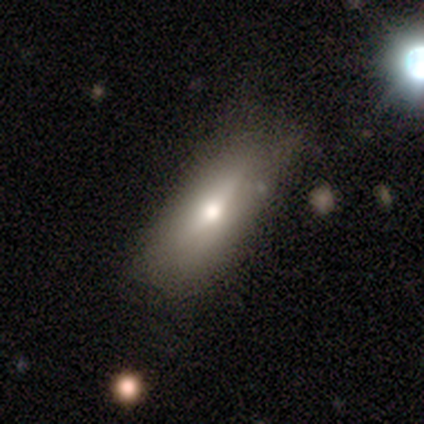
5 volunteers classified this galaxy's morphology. Q: Smooth or featured?
A: smooth (80%); runner-up: star or artifact (20%)
Q: How rounded?
A: in between (50%); tied with: cigar-shaped (50%)
Q: Merging?
A: none (100%)